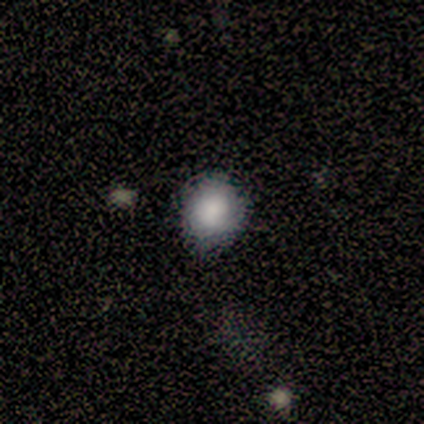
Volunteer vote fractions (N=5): Q: Smooth or featured?
A: smooth (40%); tied with: star or artifact (40%)
Q: How rounded?
A: round (100%)
Q: Merging?
A: none (100%)